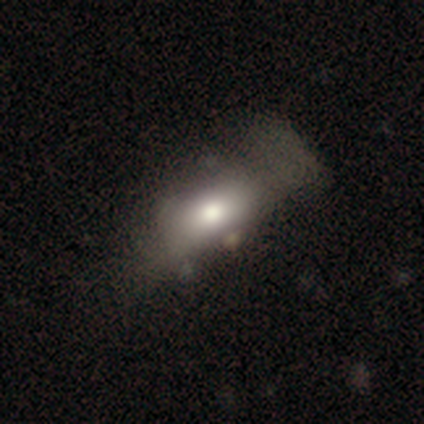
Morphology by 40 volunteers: This is likely a smooth galaxy (70%). How rounded: clearly in between (86%). Merging: marginally major disturbance (31%).